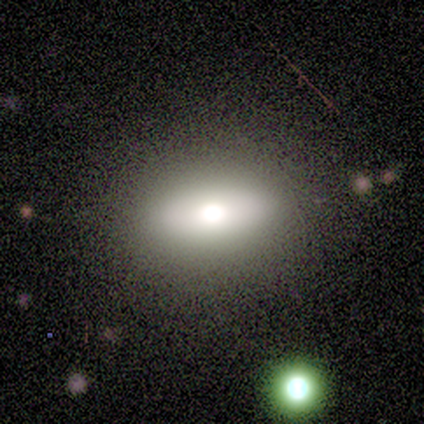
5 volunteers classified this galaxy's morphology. Smooth or featured?
  - smooth: 60% *
  - featured or disk: 40%
  - star or artifact: 0%
How rounded?
  - round: 33% * (tied)
  - in between: 33% * (tied)
  - cigar-shaped: 33% * (tied)
Merging?
  - none: 100% *
  - minor disturbance: 0%
  - major disturbance: 0%
  - merger: 0%